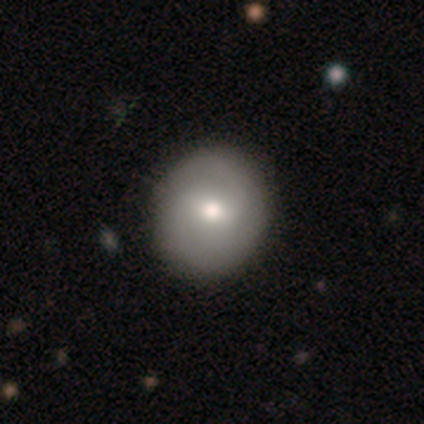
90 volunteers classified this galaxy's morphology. Smooth or featured? smooth (60%)
How rounded? round (83%)
Merging? none (87%)